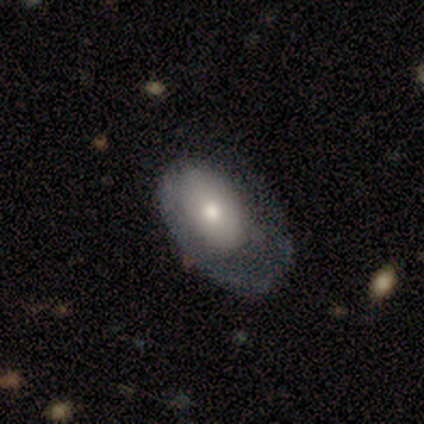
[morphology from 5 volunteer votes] Smooth or featured?
  - featured or disk: 60% *
  - smooth: 40%
  - star or artifact: 0%
Edge-on disk?
  - no: 100% *
  - yes: 0%
Bar?
  - no: 100% *
  - strong: 0%
  - weak: 0%
Spiral arms?
  - no: 100% *
  - yes: 0%
Bulge size?
  - moderate: 67% *
  - small: 33%
  - dominant: 0%
  - large: 0%
  - none: 0%
Merging?
  - minor disturbance: 60% *
  - none: 20%
  - major disturbance: 20%
  - merger: 0%